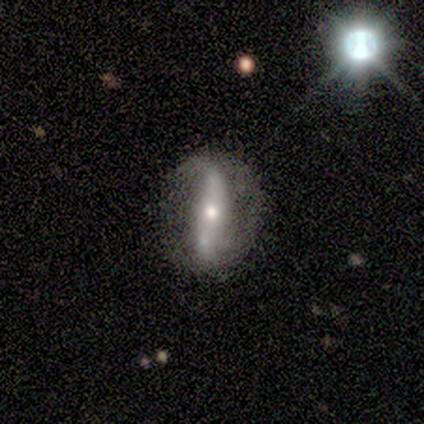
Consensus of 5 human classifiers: Smooth or featured?
  - featured or disk: 80% *
  - smooth: 20%
  - star or artifact: 0%
Edge-on disk?
  - yes: 50% * (tied)
  - no: 50% * (tied)
Edge-on bulge?
  - rounded: 100% *
  - boxy: 0%
  - none: 0%
Merging?
  - none: 100% *
  - minor disturbance: 0%
  - major disturbance: 0%
  - merger: 0%